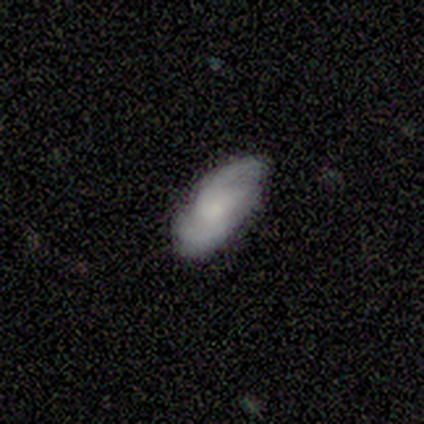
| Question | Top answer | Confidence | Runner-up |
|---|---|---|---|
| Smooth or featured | smooth | 60% | featured or disk (20%) |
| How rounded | in between | 100% | — |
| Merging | none | 50% | tied: minor disturbance (50%) |